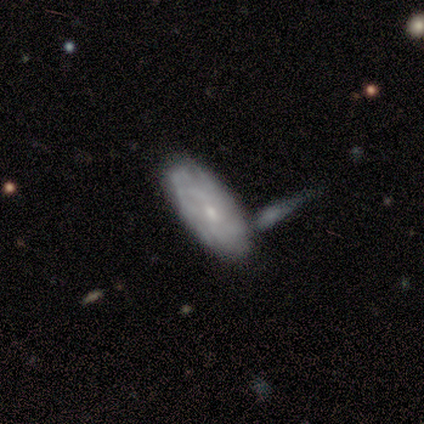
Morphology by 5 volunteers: Overall: featured or disk (80%). Edge-on disk: no (75%). Bar: weak (67%; no 33%). Spiral arms: no (67%; yes 33%). Bulge size: small (100%). Merging: none (60%; minor disturbance 20%).